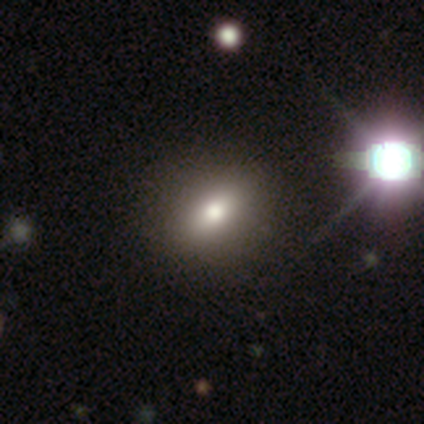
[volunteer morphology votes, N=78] Q: Smooth or featured?
A: smooth (78%); runner-up: featured or disk (13%)
Q: How rounded?
A: in between (62%); runner-up: round (33%)
Q: Merging?
A: none (52%); runner-up: minor disturbance (7%)